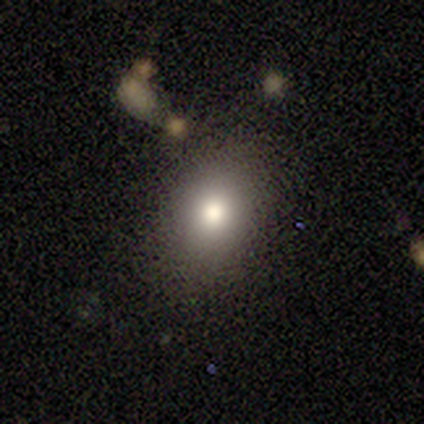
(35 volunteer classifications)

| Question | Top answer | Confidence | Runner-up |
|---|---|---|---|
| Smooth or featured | smooth | 80% | star or artifact (11%) |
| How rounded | round | 54% | in between (46%) |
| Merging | none | 77% | minor disturbance (16%) |